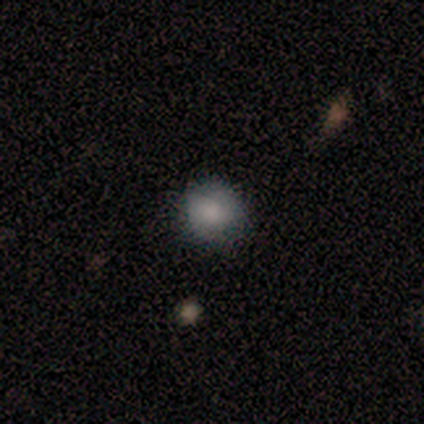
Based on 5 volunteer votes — Volunteers were most divided on "smooth or featured" (2-way tie): smooth: 40%, featured or disk: 40%, star or artifact: 20%; "how rounded" (2-way tie): round: 50%, in between: 50%, cigar-shaped: 0%. More confident: merging — none (75%).